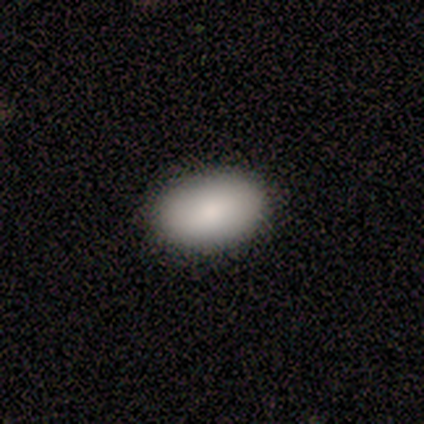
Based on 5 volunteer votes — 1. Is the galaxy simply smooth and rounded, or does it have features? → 100% smooth, 0% featured or disk, 0% star or artifact.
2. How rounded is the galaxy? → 100% in between, 0% round, 0% cigar-shaped.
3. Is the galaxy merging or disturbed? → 80% none, 20% minor disturbance, 0% major disturbance, 0% merger.